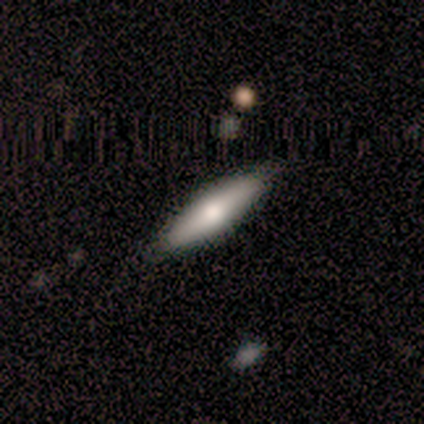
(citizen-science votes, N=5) A smooth galaxy with no disk features (60%) that is in between round and cigar-shaped (67%). Merging: none (60%).